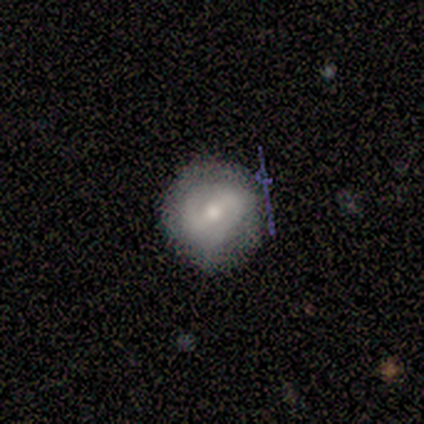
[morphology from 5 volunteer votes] Q: Smooth or featured?
A: featured or disk (60%); runner-up: smooth (40%)
Q: Edge-on disk?
A: no (100%)
Q: Bar?
A: weak (67%); runner-up: no (33%)
Q: Spiral arms?
A: no (67%); runner-up: yes (33%)
Q: Bulge size?
A: moderate (67%); runner-up: small (33%)
Q: Merging?
A: none (60%); runner-up: minor disturbance (20%)